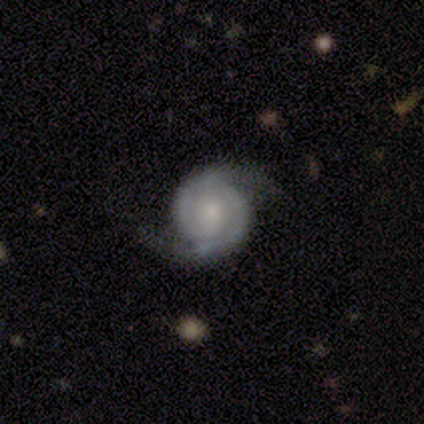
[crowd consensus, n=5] Smooth or featured: featured or disk — 80% (smooth — 20%)
Edge-on disk: no — 100%
Bar: no — 75% (weak — 25%)
Spiral arms: yes — 100%
Spiral winding: loose — 75% (tight — 25%)
Spiral arm count: 2 — 100%
Bulge size: small — 75% (dominant — 25%)
Merging: none — 80% (minor disturbance — 20%)